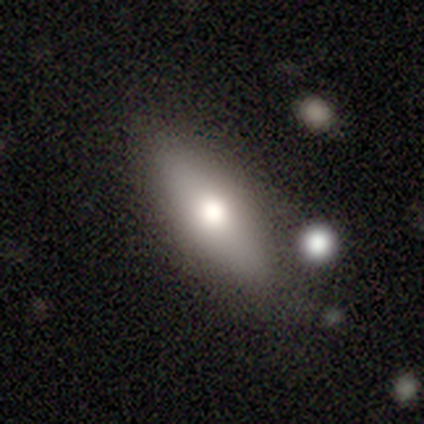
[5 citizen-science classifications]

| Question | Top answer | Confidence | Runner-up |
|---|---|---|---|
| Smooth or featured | smooth | 80% | featured or disk (20%) |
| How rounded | in between | 75% | round (25%) |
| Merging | none | 80% | minor disturbance (20%) |